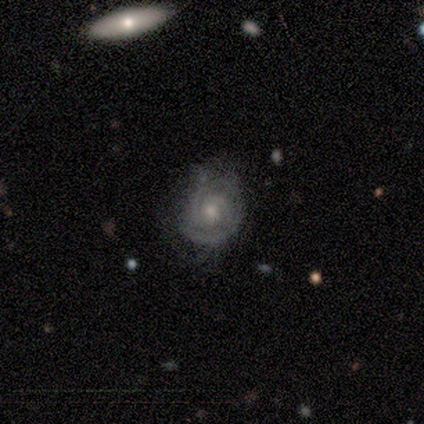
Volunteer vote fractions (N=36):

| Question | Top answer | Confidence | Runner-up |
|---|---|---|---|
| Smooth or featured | featured or disk | 81% | smooth (14%) |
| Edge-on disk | no | 100% | — |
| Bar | no | 79% | weak (21%) |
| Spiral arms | yes | 100% | — |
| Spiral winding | tight | 76% | medium (24%) |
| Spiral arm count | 2 | 48% | 3 (28%) |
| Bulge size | moderate | 69% | small (28%) |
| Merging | none | 65% | minor disturbance (26%) |